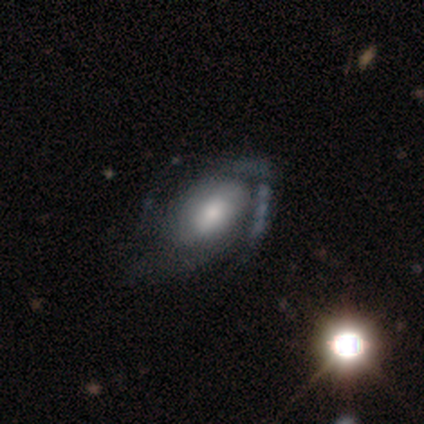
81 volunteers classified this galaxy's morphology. Smooth or featured?
  - featured or disk: 62% *
  - smooth: 33%
  - star or artifact: 5%
Edge-on disk?
  - no: 96% *
  - yes: 4%
Bar?
  - no: 69% *
  - weak: 29%
  - strong: 2%
Spiral arms?
  - yes: 65% *
  - no: 35%
Spiral winding?
  - tight: 39% * (tied)
  - medium: 39% * (tied)
  - loose: 23%
Spiral arm count?
  - 2: 45% *
  - can't tell: 26%
  - 1: 13%
  - 3: 6%
  - 4: 6%
  - more than 4: 3%
Bulge size?
  - moderate: 52% *
  - large: 21%
  - dominant: 12%
  - small: 12%
  - none: 2%
Merging?
  - major disturbance: 39% *
  - none: 36%
  - minor disturbance: 17%
  - merger: 8%